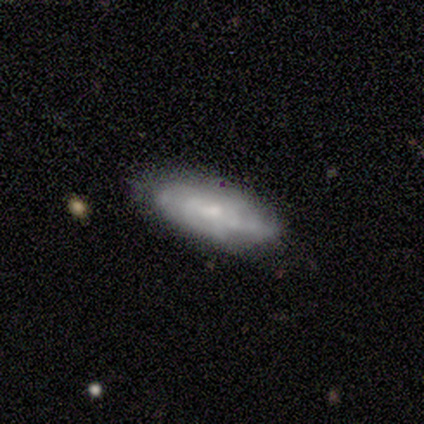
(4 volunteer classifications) Smooth or featured? 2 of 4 (50%, tied with featured or disk) said smooth. How rounded? 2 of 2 (100%) said in between. Merging? 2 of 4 (50%, tied with minor disturbance) said none.